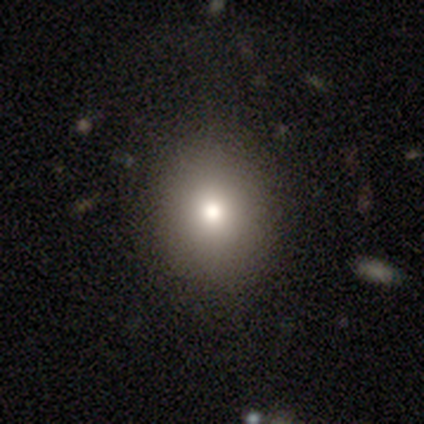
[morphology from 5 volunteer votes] smooth_or_featured: smooth (p=0.80) [alt: featured or disk p=0.20]
how_rounded: in between (p=0.75) [alt: round p=0.25]
merging: none (p=1.00)